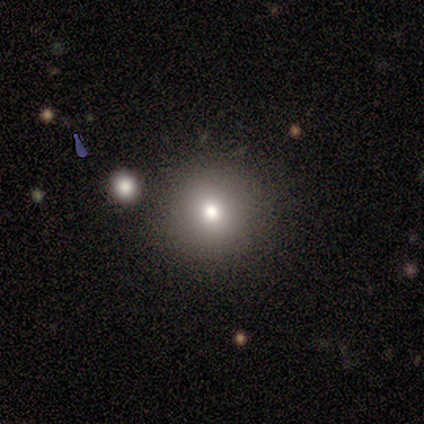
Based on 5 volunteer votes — Smooth or featured? 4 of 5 (80%) said smooth. How rounded? 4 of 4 (100%) said round. Merging? 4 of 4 (100%) said none.